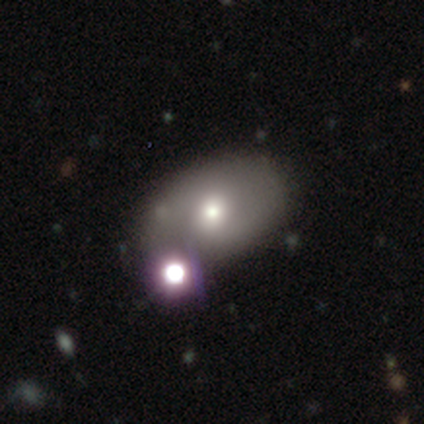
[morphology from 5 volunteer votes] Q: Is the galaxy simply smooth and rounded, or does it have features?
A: smooth — 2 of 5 (40%, tied with featured or disk).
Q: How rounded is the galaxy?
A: in between — 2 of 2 (100%).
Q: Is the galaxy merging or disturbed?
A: none — 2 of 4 (50%, tied with merger).